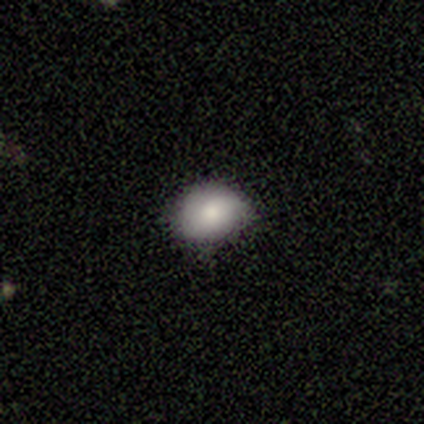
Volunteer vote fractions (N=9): Overall: smooth (67%). How rounded: in between (83%). Merging: none (50%, tied with minor disturbance).